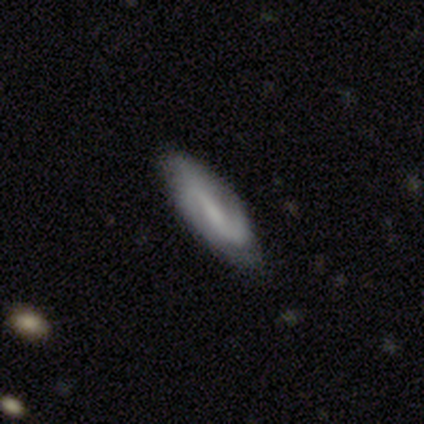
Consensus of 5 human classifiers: Volunteers were most divided on "smooth or featured": featured or disk: 60%, smooth: 40%, star or artifact: 0%. More confident: edge-on bulge — none (100%); merging — none (80%); edge-on disk — yes (67%).